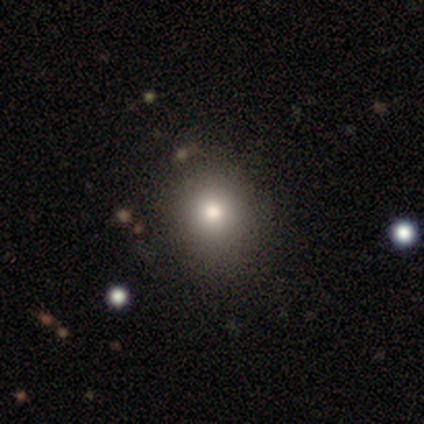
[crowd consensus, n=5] smooth 60%, featured or disk 20%, star or artifact 20%. Down the decision tree: how rounded — in between (67%); merging — none (50%).